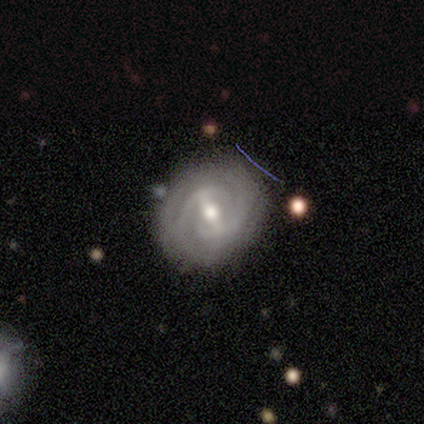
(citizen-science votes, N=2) Smooth or featured?
  - featured or disk: 100% *
  - smooth: 0%
  - star or artifact: 0%
Edge-on disk?
  - no: 100% *
  - yes: 0%
Bar?
  - strong: 100% *
  - weak: 0%
  - no: 0%
Spiral arms?
  - yes: 100% *
  - no: 0%
Spiral winding?
  - tight: 50% * (tied)
  - medium: 50% * (tied)
  - loose: 0%
Spiral arm count?
  - 2: 100% *
  - 1: 0%
  - 3: 0%
  - 4: 0%
  - more than 4: 0%
  - can't tell: 0%
Bulge size?
  - small: 100% *
  - dominant: 0%
  - large: 0%
  - moderate: 0%
  - none: 0%
Merging?
  - none: 100% *
  - minor disturbance: 0%
  - major disturbance: 0%
  - merger: 0%